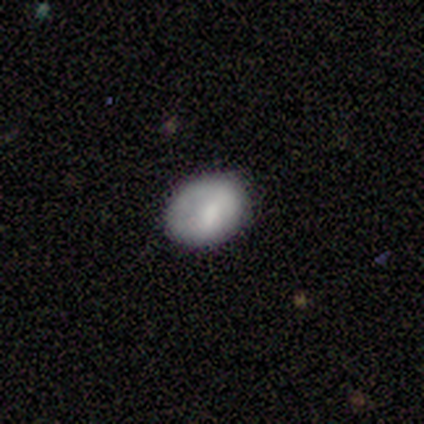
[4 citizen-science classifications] Overall: smooth (100%). How rounded: round (50%, tied with in between). Merging: none (75%).